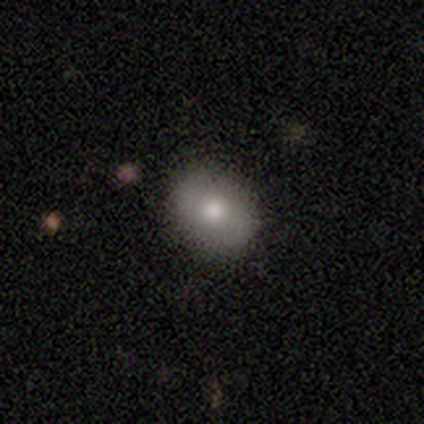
Smooth or featured: smooth — 100%
How rounded: round — 60% (in between — 40%)
Merging: none — 100%